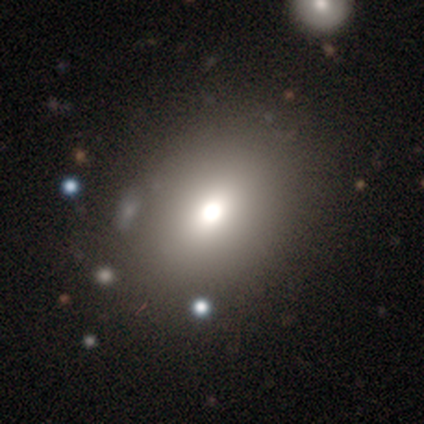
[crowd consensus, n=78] Smooth or featured?
  - smooth: 74% *
  - featured or disk: 15%
  - star or artifact: 10%
How rounded?
  - in between: 59% *
  - round: 40%
  - cigar-shaped: 2%
Merging?
  - none: 36% *
  - merger: 13%
  - minor disturbance: 3%
  - major disturbance: 1%